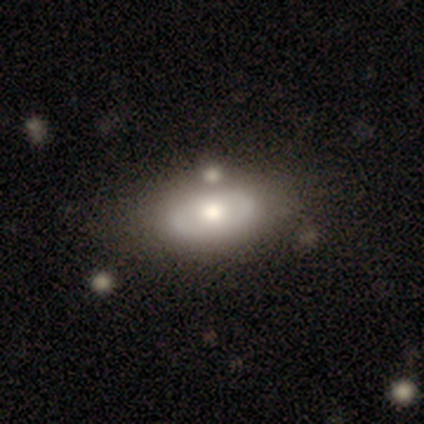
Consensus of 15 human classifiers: A featured or disk galaxy (80%) with no bar (82%), no spiral arms (91%) and a moderate central bulge (73%).

Vote fractions:
- Smooth or featured? featured or disk: 80% / smooth: 13% / star or artifact: 7%
- Edge-on disk? no: 92% / yes: 8%
- Bar? no: 82% / weak: 18% / strong: 0%
- Spiral arms? no: 91% / yes: 9%
- Bulge size? moderate: 73% / large: 27% / dominant: 0% / small: 0% / none: 0%
- Merging? none: 71% / minor disturbance: 21% / merger: 7% / major disturbance: 0%